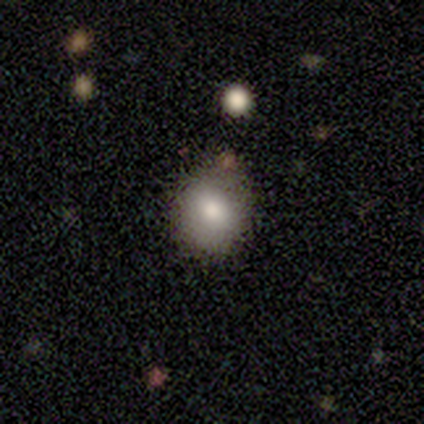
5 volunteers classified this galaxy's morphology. type=smooth (60%); roundness=round (100%); merging=none (75%).